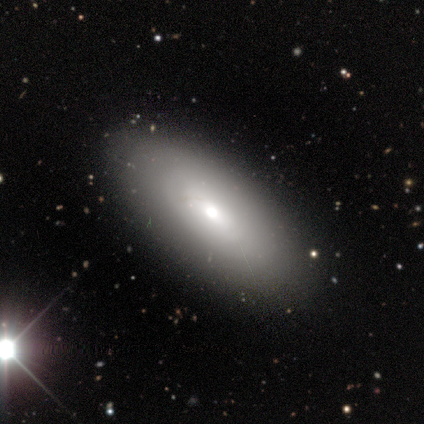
Morphology: type=smooth (60%); roundness=in between (100%); merging=none (80%).